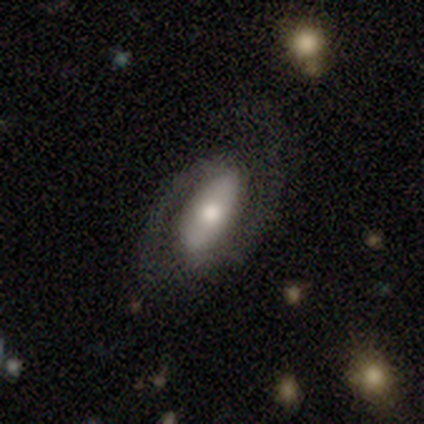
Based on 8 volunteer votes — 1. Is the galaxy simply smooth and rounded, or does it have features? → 88% featured or disk, 12% smooth, 0% star or artifact.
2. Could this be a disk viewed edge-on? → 100% no, 0% yes.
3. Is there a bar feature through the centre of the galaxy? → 57% no, 29% weak, 14% strong.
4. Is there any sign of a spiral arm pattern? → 100% yes, 0% no.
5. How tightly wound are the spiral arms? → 57% medium, 29% loose, 14% tight.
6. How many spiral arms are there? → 100% 2, 0% 1, 0% 3, 0% 4, 0% more than 4, 0% can't tell.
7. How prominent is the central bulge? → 71% moderate, 29% small, 0% dominant, 0% large, 0% none.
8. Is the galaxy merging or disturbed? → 75% none, 12% minor disturbance, 12% major disturbance, 0% merger.